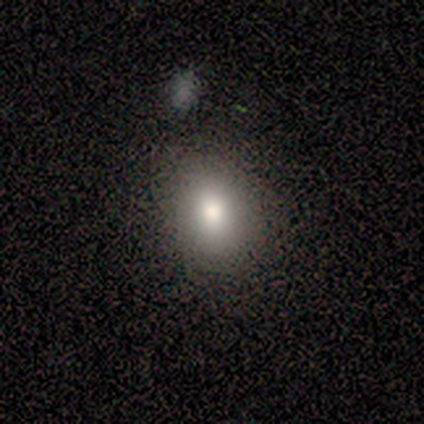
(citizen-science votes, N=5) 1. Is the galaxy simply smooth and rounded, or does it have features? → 80% smooth, 20% featured or disk, 0% star or artifact.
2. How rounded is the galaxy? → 75% in between, 25% round, 0% cigar-shaped.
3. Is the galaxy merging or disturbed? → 60% none, 40% major disturbance, 0% minor disturbance, 0% merger.